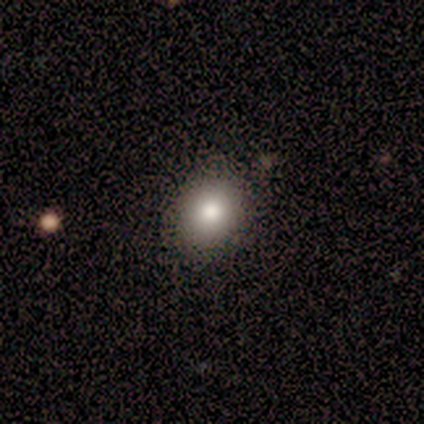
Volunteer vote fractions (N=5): Smooth or featured? smooth (100%)
How rounded? in between (100%)
Merging? none (100%)